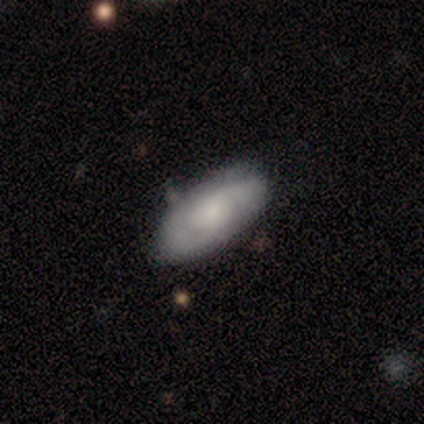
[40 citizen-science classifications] This appears to be a featured or disk galaxy (65%) with no bar (80%), 2 (78%) tight (57%) spiral arms (92%) and a small central bulge (52%). Merging: none (64%).